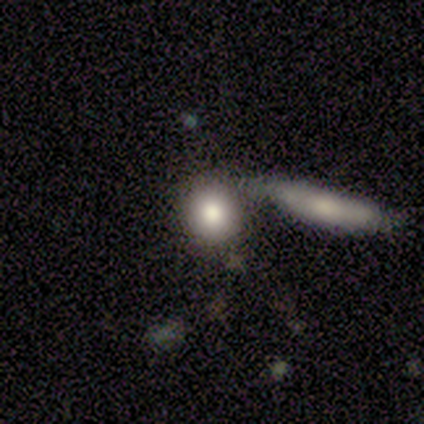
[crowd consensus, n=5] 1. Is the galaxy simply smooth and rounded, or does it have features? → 80% smooth, 20% featured or disk, 0% star or artifact.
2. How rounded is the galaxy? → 75% round, 25% in between, 0% cigar-shaped.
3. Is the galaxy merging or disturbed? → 60% none, 40% merger, 0% minor disturbance, 0% major disturbance.